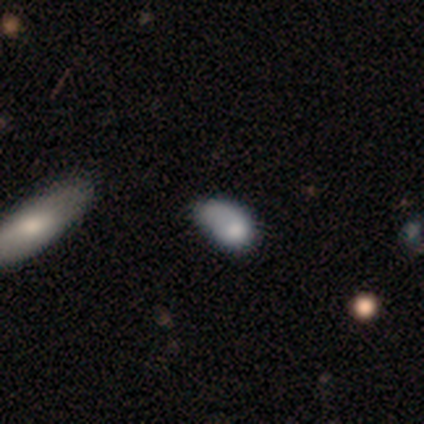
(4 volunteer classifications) A smooth galaxy with no disk features (75%) that is in between round and cigar-shaped (67%). Merging: minor disturbance (67%).